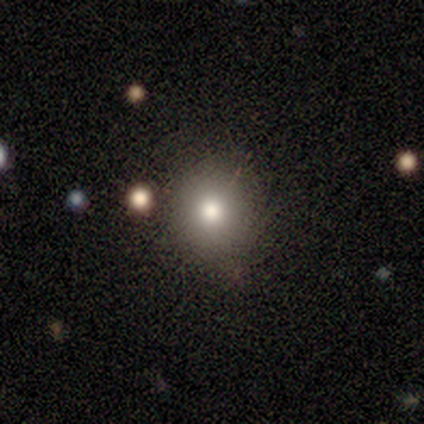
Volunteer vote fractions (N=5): Smooth or featured?
  - smooth: 80% *
  - star or artifact: 20%
  - featured or disk: 0%
How rounded?
  - round: 75% *
  - in between: 25%
  - cigar-shaped: 0%
Merging?
  - none: 100% *
  - minor disturbance: 0%
  - major disturbance: 0%
  - merger: 0%